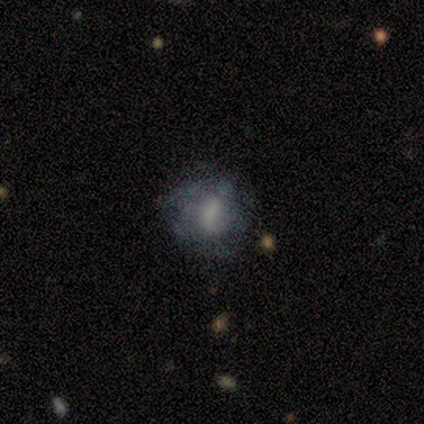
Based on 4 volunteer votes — smooth_or_featured: smooth (p=0.75) [alt: featured or disk p=0.25]
how_rounded: round (p=0.67) [alt: in between p=0.33]
merging: none (p=0.75) [alt: minor disturbance p=0.25]